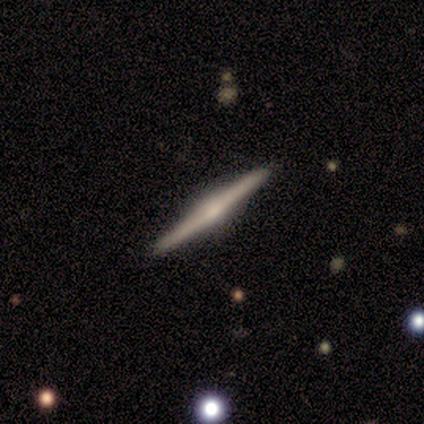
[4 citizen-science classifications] smooth_or_featured: featured or disk (p=1.00)
disk_edge_on: yes (p=1.00)
edge_on_bulge: rounded (p=0.50) [alt: boxy p=0.25]
merging: none (p=1.00)